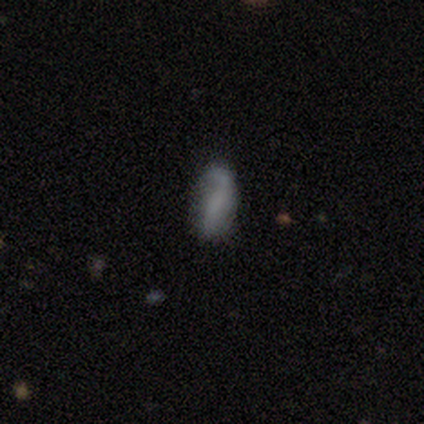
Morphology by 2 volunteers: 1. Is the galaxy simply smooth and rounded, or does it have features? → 100% smooth, 0% featured or disk, 0% star or artifact.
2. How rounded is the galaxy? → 100% in between, 0% round, 0% cigar-shaped.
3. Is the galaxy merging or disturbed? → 50% none (tied), 50% major disturbance (tied), 0% minor disturbance, 0% merger.